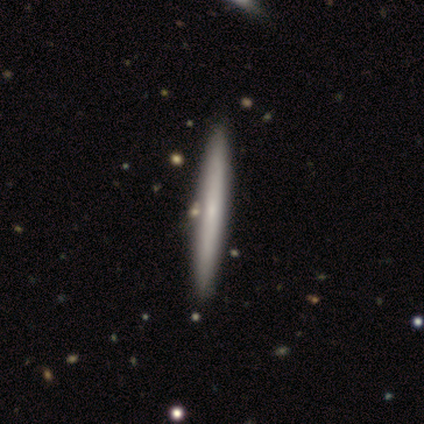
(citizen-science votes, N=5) smooth_or_featured: smooth (p=0.60) [alt: featured or disk p=0.40]
how_rounded: cigar-shaped (p=1.00)
merging: none (p=1.00)